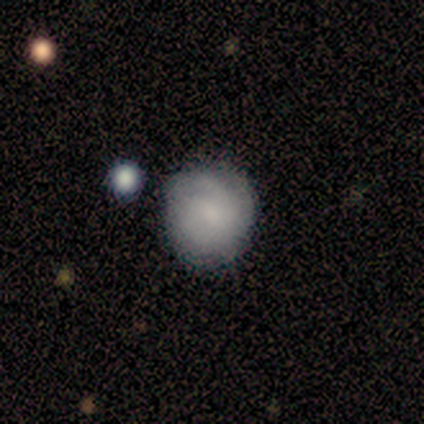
Morphology: type=smooth (56%); roundness=round (100%); merging=none (71%).